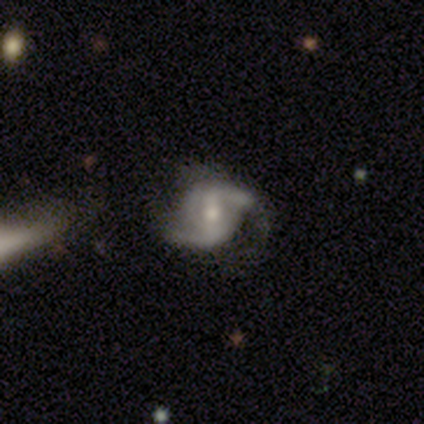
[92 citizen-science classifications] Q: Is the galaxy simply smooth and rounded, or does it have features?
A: featured or disk — 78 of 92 (85%).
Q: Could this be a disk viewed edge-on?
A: no — 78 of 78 (100%).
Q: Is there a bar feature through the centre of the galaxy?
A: weak — 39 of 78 (50%).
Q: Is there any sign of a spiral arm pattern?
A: yes — 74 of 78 (95%).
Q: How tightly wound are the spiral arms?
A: medium — 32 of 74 (43%).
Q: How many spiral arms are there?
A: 2 — 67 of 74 (91%).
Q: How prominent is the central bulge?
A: moderate — 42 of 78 (54%).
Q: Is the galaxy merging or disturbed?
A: none — 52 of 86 (60%).